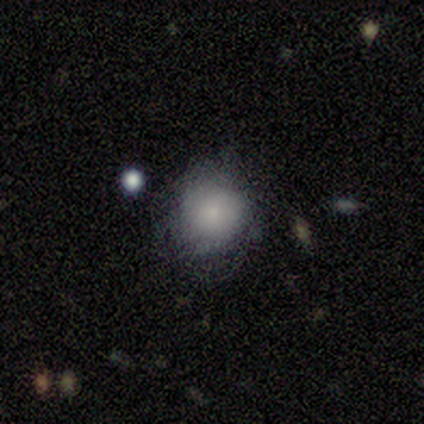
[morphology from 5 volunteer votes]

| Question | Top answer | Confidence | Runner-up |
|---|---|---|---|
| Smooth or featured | smooth | 60% | featured or disk (40%) |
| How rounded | round | 100% | — |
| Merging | none | 80% | minor disturbance (20%) |